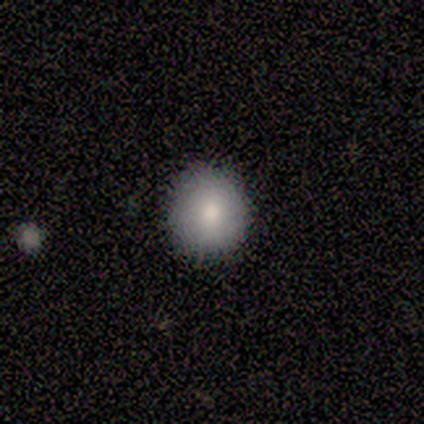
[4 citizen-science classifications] Morphology: type=smooth (50%, tied with star or artifact); roundness=round (100%); merging=none (100%).